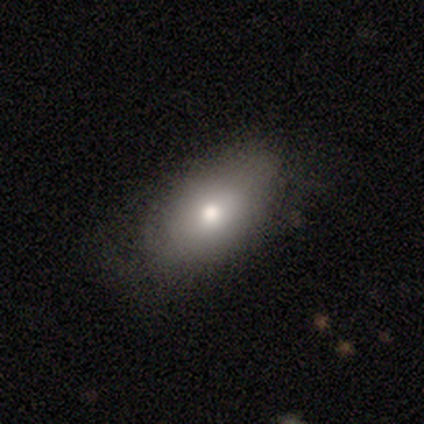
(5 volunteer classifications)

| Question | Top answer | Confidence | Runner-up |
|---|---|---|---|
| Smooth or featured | featured or disk | 60% | smooth (20%) |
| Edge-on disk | no | 100% | — |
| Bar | no | 100% | — |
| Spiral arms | no | 100% | — |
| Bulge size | large | 33% | tied: moderate (33%), small (33%) |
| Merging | none | 75% | minor disturbance (25%) |